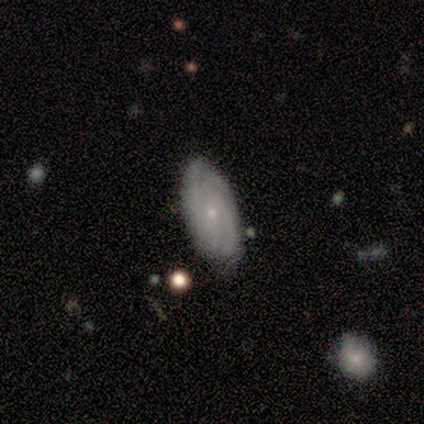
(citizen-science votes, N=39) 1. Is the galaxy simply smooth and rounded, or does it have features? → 72% featured or disk, 26% smooth, 3% star or artifact.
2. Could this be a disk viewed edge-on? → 100% no, 0% yes.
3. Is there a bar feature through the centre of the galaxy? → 71% no, 25% weak, 4% strong.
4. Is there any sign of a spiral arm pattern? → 93% yes, 7% no.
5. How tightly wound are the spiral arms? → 58% tight, 38% medium, 4% loose.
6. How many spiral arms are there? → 38% 2, 31% 4, 15% 3, 12% can't tell, 4% more than 4, 0% 1.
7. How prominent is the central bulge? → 86% small, 11% moderate, 4% dominant, 0% large, 0% none.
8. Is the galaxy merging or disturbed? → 71% none, 26% minor disturbance, 3% major disturbance, 0% merger.